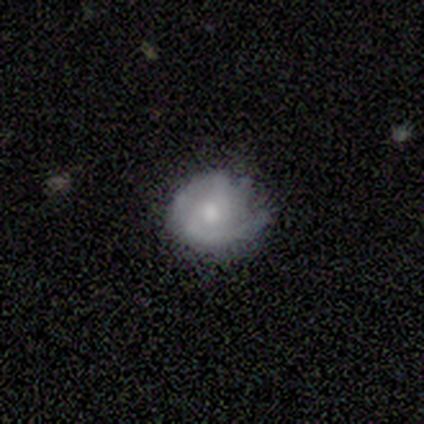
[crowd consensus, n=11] Smooth or featured? 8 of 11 (73%) said featured or disk. Edge-on disk? 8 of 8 (100%) said no. Bar? 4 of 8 (50%, tied with no) said weak. Spiral arms? 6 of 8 (75%) said yes. Spiral winding? 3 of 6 (50%) said tight. Spiral arm count? 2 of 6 (33%) said 2. Bulge size? 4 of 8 (50%) said moderate. Merging? 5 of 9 (56%) said none.